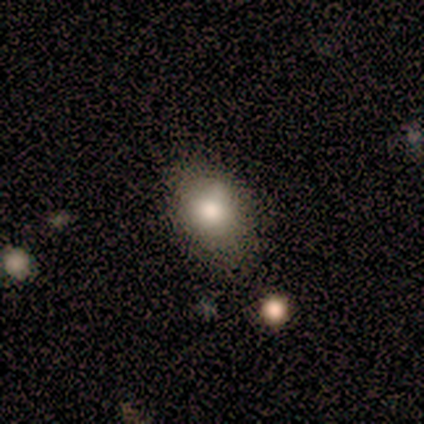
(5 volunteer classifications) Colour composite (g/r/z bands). It shows a smooth galaxy with no disk features (100%) that is in between round and cigar-shaped (80%). Merging: none (100%).